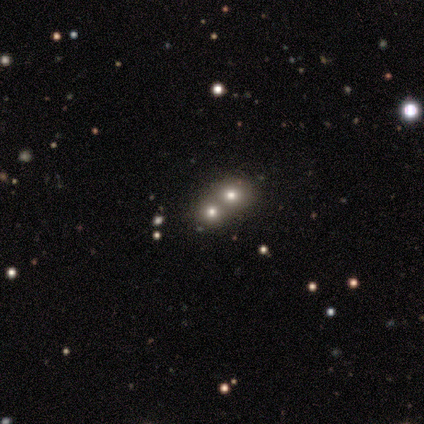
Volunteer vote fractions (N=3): Smooth or featured? star or artifact (67%)